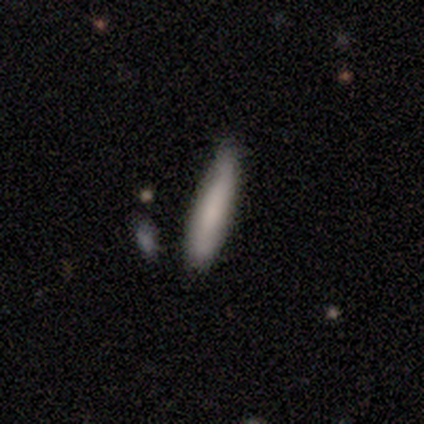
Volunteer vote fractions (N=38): Smooth or featured? 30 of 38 (79%) said smooth. How rounded? 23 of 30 (77%) said cigar-shaped. Merging? 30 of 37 (81%) said none.